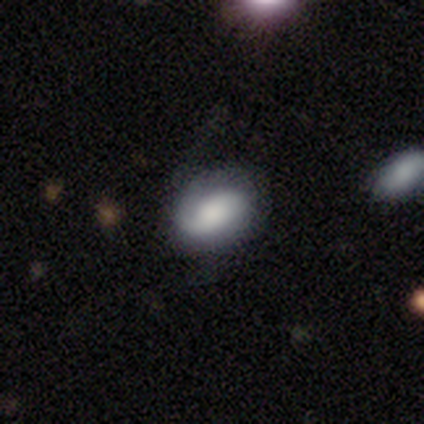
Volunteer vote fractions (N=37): smooth-or-featured: smooth: 51% | featured or disk: 46% | star or artifact: 3%
  how-rounded: in between: 68% | round: 32% | cigar-shaped: 0%
  merging: none: 72% | minor disturbance: 19% | major disturbance: 8% | merger: 0%